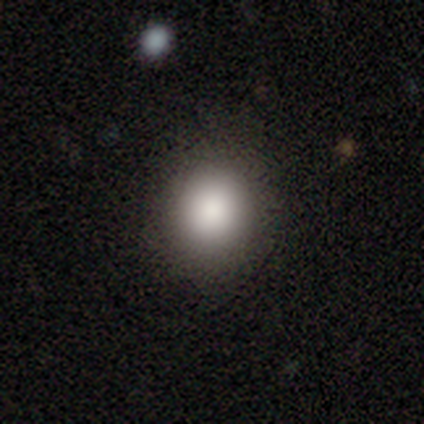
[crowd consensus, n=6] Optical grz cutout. It shows a smooth galaxy with no disk features (100%) that is round (67%). Merging: none (100%).